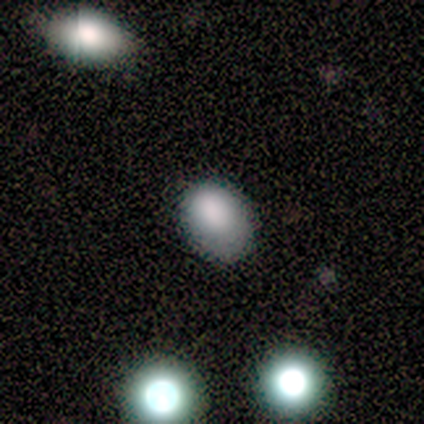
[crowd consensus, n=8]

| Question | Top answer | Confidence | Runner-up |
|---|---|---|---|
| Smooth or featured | smooth | 88% | star or artifact (12%) |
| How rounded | in between | 86% | round (14%) |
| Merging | none | 71% | minor disturbance (29%) |